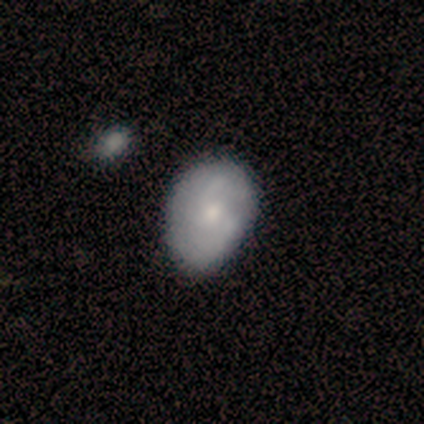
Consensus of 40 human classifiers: Morphology: type=smooth (57%); roundness=in between (83%); merging=none (50%).